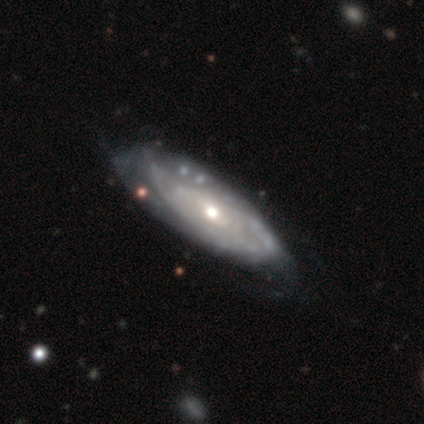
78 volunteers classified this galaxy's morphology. smooth-or-featured: featured or disk: 91% | smooth: 6% | star or artifact: 3%
  disk-edge-on: no: 90% | yes: 10%
    bar: no: 59% | weak: 36% | strong: 5%
    has-spiral-arms: yes: 91% | no: 9%
      spiral-winding: tight: 71% | medium: 19% | loose: 10%
      spiral-arm-count: can't tell: 67% | 2: 24% | 1: 3% | 3: 3% | more than 4: 2% | 4: 0%
    bulge-size: moderate: 58% | small: 31% | large: 8% | none: 3% | dominant: 0%
  merging: none: 30% | minor disturbance: 13% | major disturbance: 7% | merger: 4%